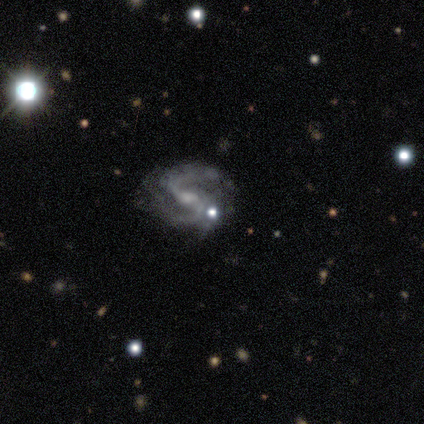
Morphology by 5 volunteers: Smooth or featured?
  - featured or disk: 80% *
  - star or artifact: 20%
  - smooth: 0%
Edge-on disk?
  - no: 100% *
  - yes: 0%
Bar?
  - weak: 100% *
  - strong: 0%
  - no: 0%
Spiral arms?
  - yes: 100% *
  - no: 0%
Spiral winding?
  - tight: 50% *
  - medium: 25%
  - loose: 25%
Spiral arm count?
  - 2: 75% *
  - 3: 25%
  - 1: 0%
  - 4: 0%
  - more than 4: 0%
  - can't tell: 0%
Bulge size?
  - small: 75% *
  - none: 25%
  - dominant: 0%
  - large: 0%
  - moderate: 0%
Merging?
  - none: 75% *
  - minor disturbance: 25%
  - major disturbance: 0%
  - merger: 0%